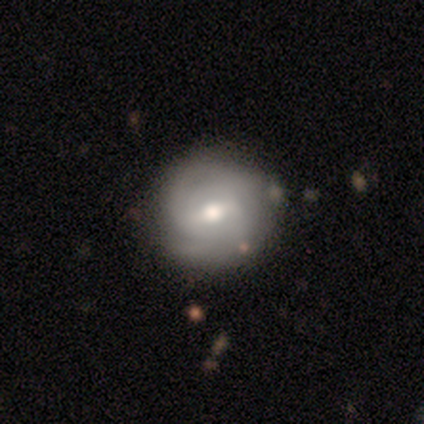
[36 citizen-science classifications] A featured or disk galaxy (78%) with a weak bar (71%), tight (77%) spiral arms (79%) and a moderate central bulge (71%). Merging: none (84%).